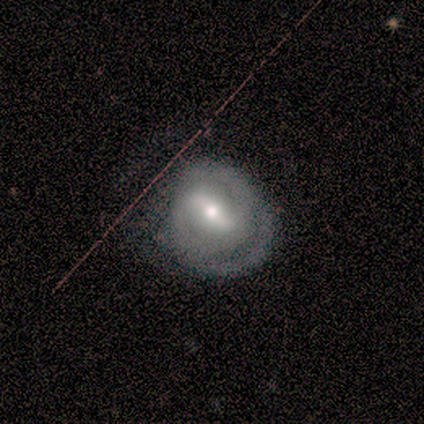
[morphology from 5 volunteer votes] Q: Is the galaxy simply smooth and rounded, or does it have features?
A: featured or disk — 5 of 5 (100%).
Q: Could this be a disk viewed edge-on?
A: no — 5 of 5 (100%).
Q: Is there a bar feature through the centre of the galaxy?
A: strong — 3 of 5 (60%).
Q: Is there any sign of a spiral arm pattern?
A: yes — 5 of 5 (100%).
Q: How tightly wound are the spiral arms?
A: tight — 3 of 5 (60%).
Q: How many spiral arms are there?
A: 2 — 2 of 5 (40%, tied with can't tell).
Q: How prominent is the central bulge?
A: small — 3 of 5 (60%).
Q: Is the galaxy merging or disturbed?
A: none — 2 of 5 (40%, tied with major disturbance).